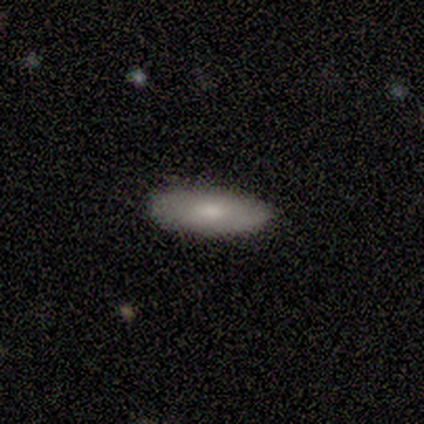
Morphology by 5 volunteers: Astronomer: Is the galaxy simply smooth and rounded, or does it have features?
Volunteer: smooth — 80%.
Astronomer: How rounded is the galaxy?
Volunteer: in between — 75%.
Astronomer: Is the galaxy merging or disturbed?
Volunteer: none — 100%.